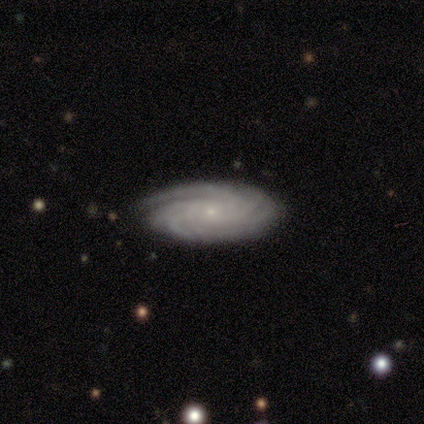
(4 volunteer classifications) This is likely a featured or disk galaxy (75%). It is clearly not viewed edge-on (100%). Bar: clearly no (100%). Spiral arm pattern: clearly yes (100%). Spiral arm count: likely can't tell (67%). Spiral winding: clearly tight (100%). Central bulge: clearly small (100%). Merging: clearly none (100%).